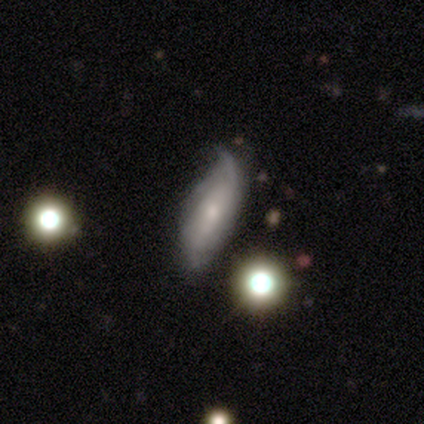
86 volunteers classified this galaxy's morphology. A featured or disk galaxy (52%) with no bar (69%), 2 (52%) loose (48%) spiral arms (66%) and a small central bulge (56%).

Vote fractions:
- Smooth or featured? featured or disk: 52% / smooth: 36% / star or artifact: 12%
- Edge-on disk? no: 71% / yes: 29%
- Bar? no: 69% / weak: 22% / strong: 9%
- Spiral arms? yes: 66% / no: 34%
- Spiral winding? loose: 48% / tight: 29% / medium: 24%
- Spiral arm count? 2: 52% / can't tell: 38% / 1: 5% / 3: 5% / 4: 0% / more than 4: 0%
- Bulge size? small: 56% / moderate: 34% / dominant: 3% / large: 3% / none: 3%
- Merging? minor disturbance: 47% / none: 34% / major disturbance: 12% / merger: 7%